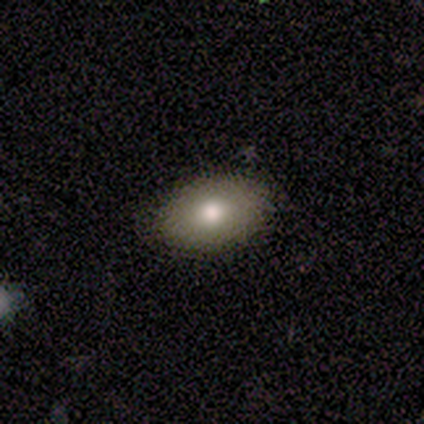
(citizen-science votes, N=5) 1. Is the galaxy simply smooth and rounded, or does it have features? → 80% smooth, 20% featured or disk, 0% star or artifact.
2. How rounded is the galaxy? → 100% in between, 0% round, 0% cigar-shaped.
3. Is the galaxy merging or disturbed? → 40% none (tied), 40% minor disturbance (tied), 20% major disturbance, 0% merger.